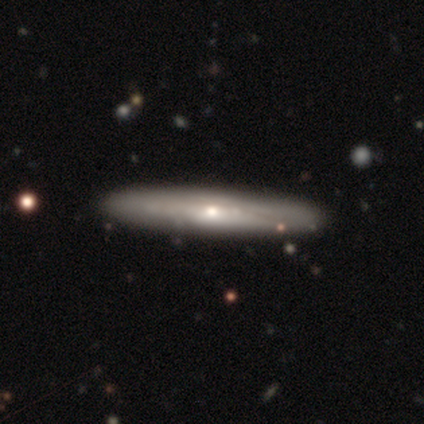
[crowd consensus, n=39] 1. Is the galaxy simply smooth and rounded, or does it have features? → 54% featured or disk, 41% smooth, 5% star or artifact.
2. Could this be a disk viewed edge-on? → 86% yes, 14% no.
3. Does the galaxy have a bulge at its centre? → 72% rounded, 22% none, 6% boxy.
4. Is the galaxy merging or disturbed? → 49% none, 3% minor disturbance, 0% major disturbance, 0% merger.